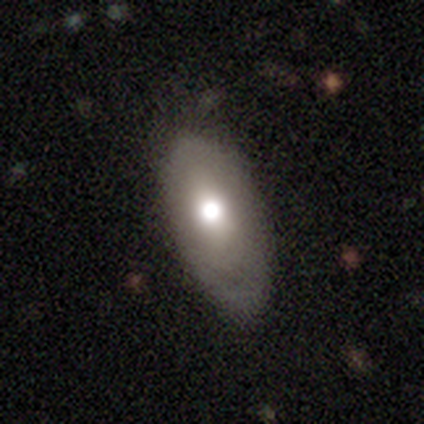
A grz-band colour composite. It shows a smooth galaxy with no disk features (100%) that is round (50%, tied with in between). Merging: none (100%).